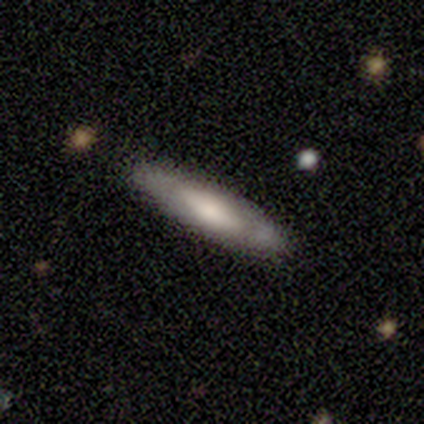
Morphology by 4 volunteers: Overall: smooth (75%). How rounded: in between (67%; cigar-shaped 33%). Merging: none (75%).